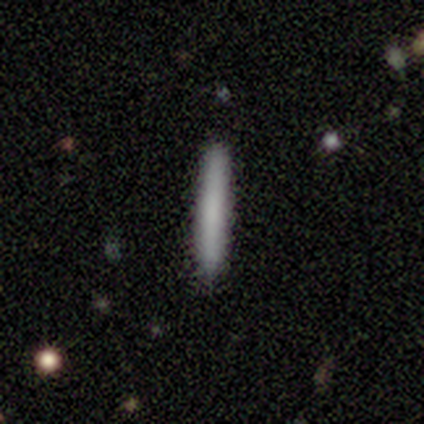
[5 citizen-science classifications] Volunteers were most divided on "smooth or featured": smooth: 80%, featured or disk: 20%, star or artifact: 0%. More confident: how rounded — cigar-shaped (100%); merging — none (100%).